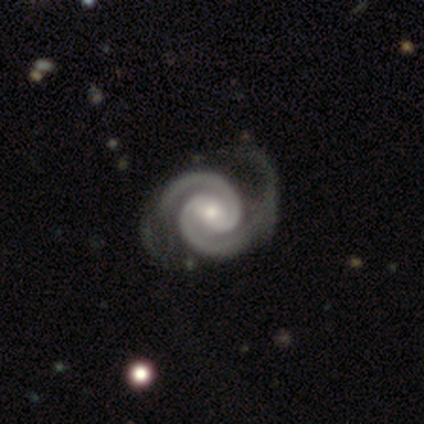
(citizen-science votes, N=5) Smooth or featured? featured or disk (100%)
Edge-on disk? no (100%)
Bar? no (60%)
Spiral arms? yes (100%)
Spiral winding? tight (80%)
Spiral arm count? 2 (100%)
Bulge size? small (60%)
Merging? none (100%)